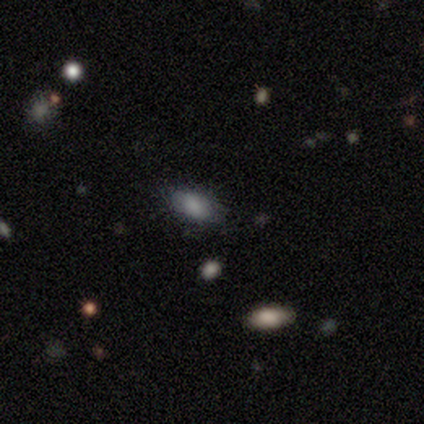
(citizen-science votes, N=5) This appears to be a smooth galaxy with no disk features (100%) that is in between round and cigar-shaped (100%). Merging: none (60%).